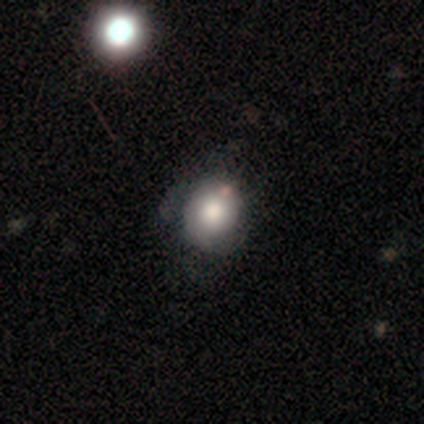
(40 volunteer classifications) This is possibly a smooth galaxy (48%). How rounded: likely round (63%). Merging: marginally none (35%).